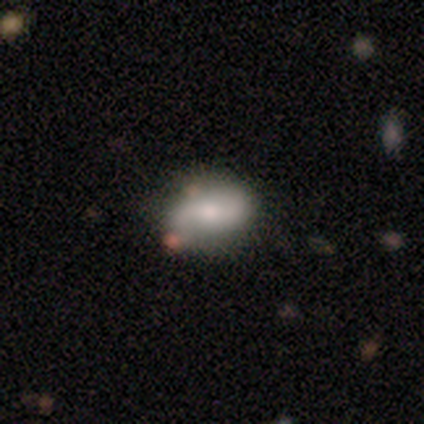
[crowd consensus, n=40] This appears to be a smooth galaxy with no disk features (57%) that is in between round and cigar-shaped (83%). Merging: none (74%).